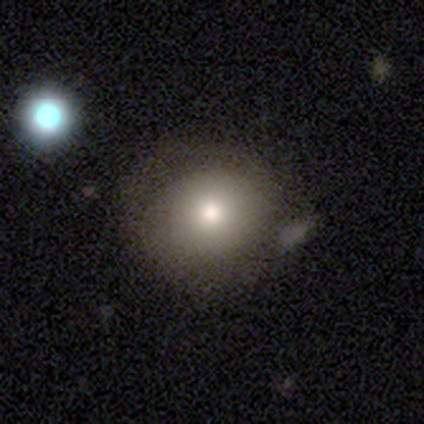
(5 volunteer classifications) smooth_or_featured: smooth (p=0.60) [alt: featured or disk p=0.20]
how_rounded: round (p=0.67) [alt: in between p=0.33]
merging: none (p=0.50) [alt: minor disturbance p=0.25]